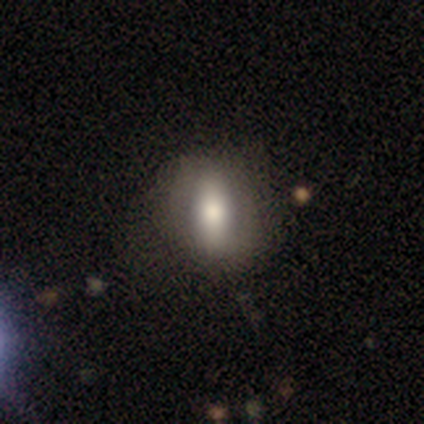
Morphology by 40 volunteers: Q: Smooth or featured?
A: smooth (75%); runner-up: featured or disk (22%)
Q: How rounded?
A: in between (80%); runner-up: round (10%)
Q: Merging?
A: none (62%); runner-up: minor disturbance (15%)